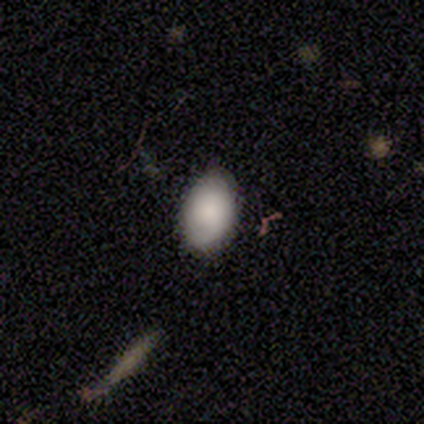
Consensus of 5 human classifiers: Smooth or featured?
  - smooth: 80% *
  - star or artifact: 20%
  - featured or disk: 0%
How rounded?
  - in between: 75% *
  - round: 25%
  - cigar-shaped: 0%
Merging?
  - none: 75% *
  - minor disturbance: 25%
  - major disturbance: 0%
  - merger: 0%